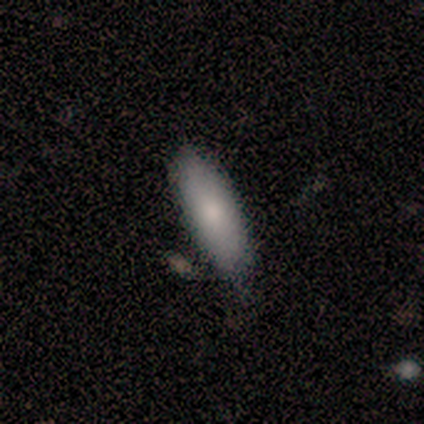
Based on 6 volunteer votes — Smooth or featured? smooth (100%)
How rounded? in between (67%)
Merging? none (50%, tied with minor disturbance)